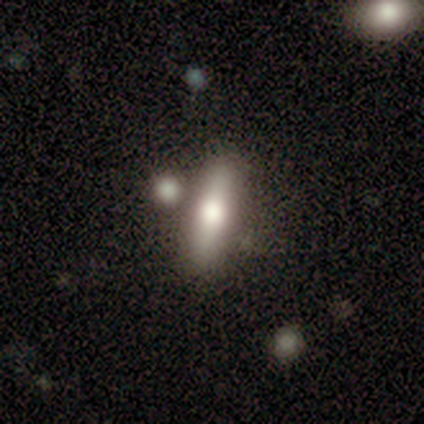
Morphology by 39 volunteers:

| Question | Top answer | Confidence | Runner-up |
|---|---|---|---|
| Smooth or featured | smooth | 67% | featured or disk (26%) |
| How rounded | cigar-shaped | 65% | in between (35%) |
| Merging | none | 81% | merger (19%) |